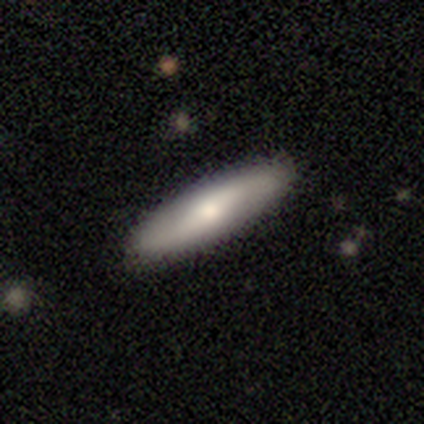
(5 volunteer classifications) smooth-or-featured: smooth: 60% | featured or disk: 40% | star or artifact: 0%
  how-rounded: cigar-shaped: 100% | round: 0% | in between: 0%
  merging: none: 100% | minor disturbance: 0% | major disturbance: 0% | merger: 0%